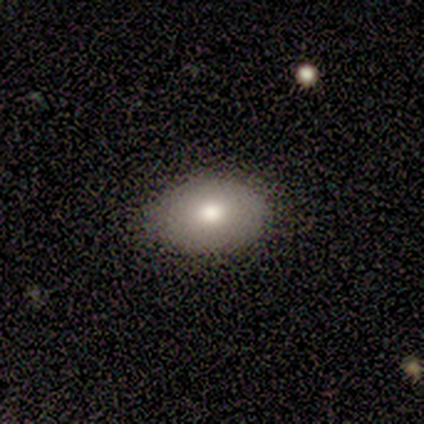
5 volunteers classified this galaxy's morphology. Smooth or featured: smooth — 40% (tied with star or artifact — 40%)
How rounded: round — 50% (tied with in between — 50%)
Merging: none — 67% (minor disturbance — 33%)